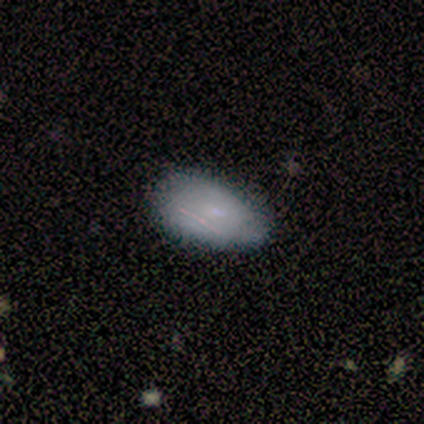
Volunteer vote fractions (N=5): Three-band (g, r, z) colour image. It shows a smooth galaxy with no disk features (80%) that is in between round and cigar-shaped (75%). Merging: minor disturbance (60%).